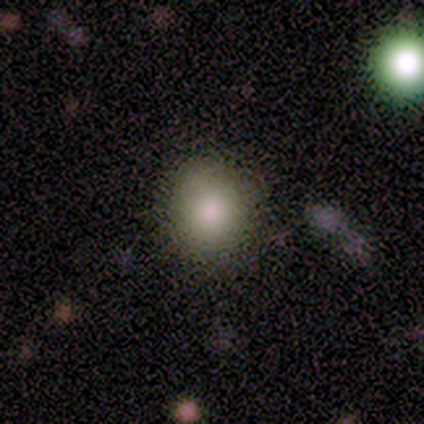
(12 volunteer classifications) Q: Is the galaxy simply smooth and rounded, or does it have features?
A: smooth — 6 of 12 (50%).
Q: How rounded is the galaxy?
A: round — 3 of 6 (50%, tied with in between).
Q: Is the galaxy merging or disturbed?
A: none — 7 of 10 (70%).